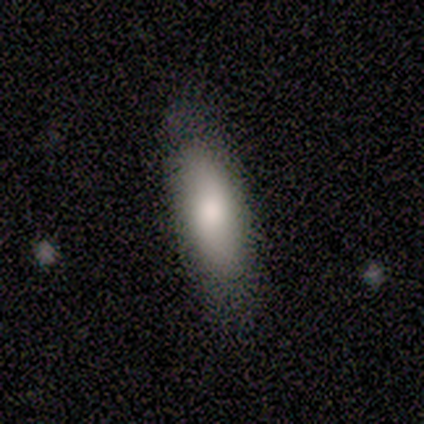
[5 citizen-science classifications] Smooth or featured: smooth — 100%
How rounded: in between — 60% (round — 20%)
Merging: none — 80% (merger — 20%)